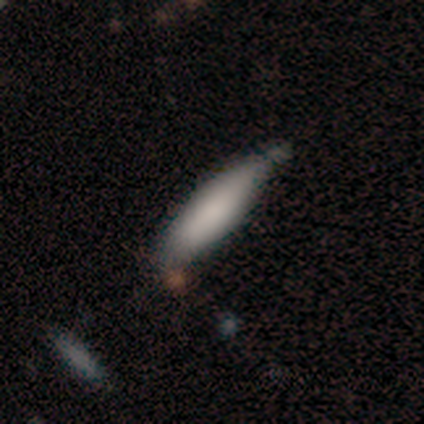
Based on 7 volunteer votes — Smooth or featured?
  - smooth: 86% *
  - featured or disk: 14%
  - star or artifact: 0%
How rounded?
  - cigar-shaped: 67% *
  - in between: 33%
  - round: 0%
Merging?
  - minor disturbance: 57% *
  - none: 43%
  - major disturbance: 0%
  - merger: 0%